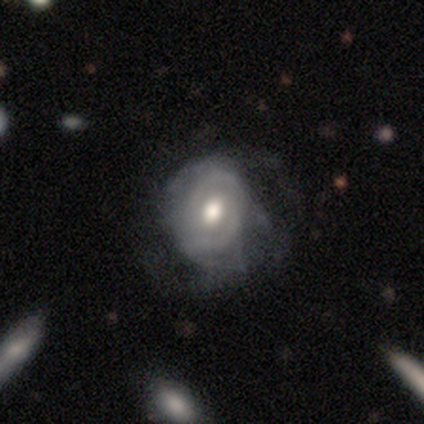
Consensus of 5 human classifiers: Q: Smooth or featured?
A: featured or disk (100%)
Q: Edge-on disk?
A: no (100%)
Q: Bar?
A: no (60%); runner-up: weak (40%)
Q: Spiral arms?
A: yes (60%); runner-up: no (40%)
Q: Spiral winding?
A: medium (67%); runner-up: tight (33%)
Q: Spiral arm count?
A: 2 (33%); tied with: 3 (33%); can't tell (33%)
Q: Bulge size?
A: moderate (80%); runner-up: large (20%)
Q: Merging?
A: major disturbance (60%); runner-up: none (20%)